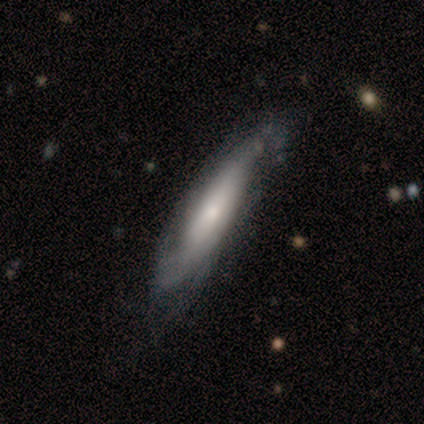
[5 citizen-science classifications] Smooth or featured? featured or disk (80%)
Edge-on disk? yes (50%, tied with no)
Edge-on bulge? rounded (100%)
Merging? none (40%, tied with minor disturbance)